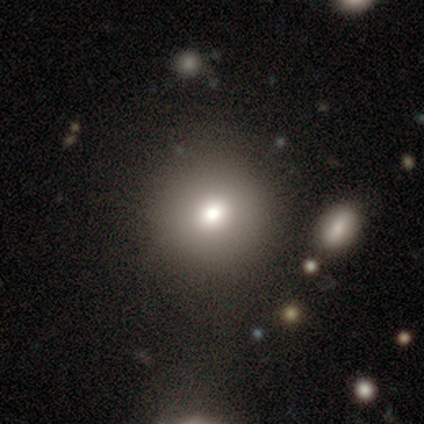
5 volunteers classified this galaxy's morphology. Smooth or featured? 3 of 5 (60%) said smooth. How rounded? 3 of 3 (100%) said round. Merging? 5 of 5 (100%) said none.